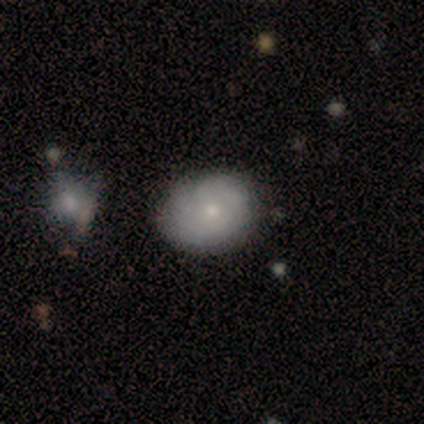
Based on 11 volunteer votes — Smooth or featured: smooth — 55% (featured or disk — 45%)
How rounded: round — 83% (in between — 17%)
Merging: none — 64% (minor disturbance — 36%)